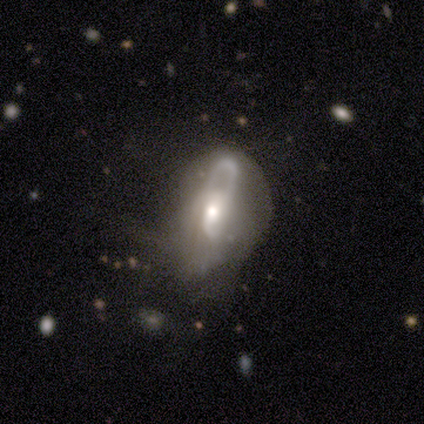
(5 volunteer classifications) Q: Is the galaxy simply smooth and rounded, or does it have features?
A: featured or disk — 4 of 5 (80%).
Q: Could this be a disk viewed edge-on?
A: no — 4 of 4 (100%).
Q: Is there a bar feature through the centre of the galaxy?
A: no — 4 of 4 (100%).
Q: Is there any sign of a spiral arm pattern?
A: no — 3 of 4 (75%).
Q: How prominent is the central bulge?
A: moderate — 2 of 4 (50%).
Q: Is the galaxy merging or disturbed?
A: major disturbance — 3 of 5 (60%).